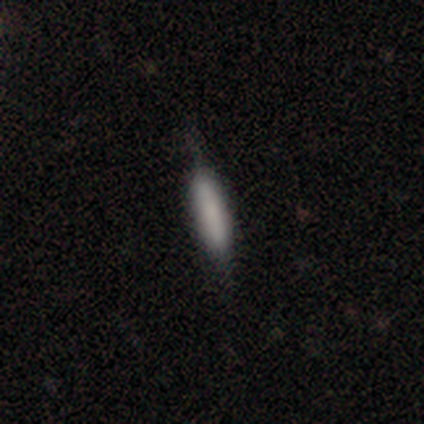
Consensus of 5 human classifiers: smooth_or_featured: smooth (p=0.80) [alt: featured or disk p=0.20]
how_rounded: in between (p=0.50) [tied with: cigar-shaped p=0.50]
merging: none (p=0.80) [alt: minor disturbance p=0.20]